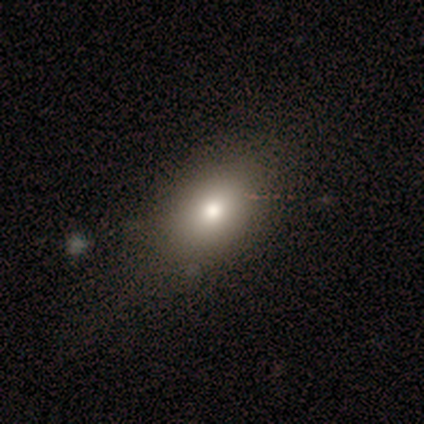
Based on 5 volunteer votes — Smooth or featured? smooth (100%)
How rounded? in between (100%)
Merging? none (60%)